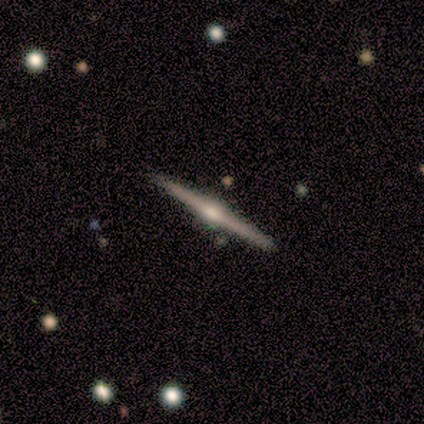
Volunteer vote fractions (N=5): Smooth or featured? featured or disk (100%)
Edge-on disk? yes (100%)
Edge-on bulge? rounded (80%)
Merging? none (100%)